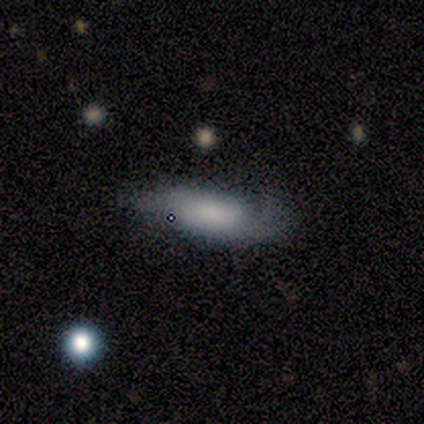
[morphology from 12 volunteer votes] smooth-or-featured: smooth: 75% | featured or disk: 25% | star or artifact: 0%
  how-rounded: in between: 89% | cigar-shaped: 11% | round: 0%
  merging: none: 42% | minor disturbance: 33% | major disturbance: 25% | merger: 0%